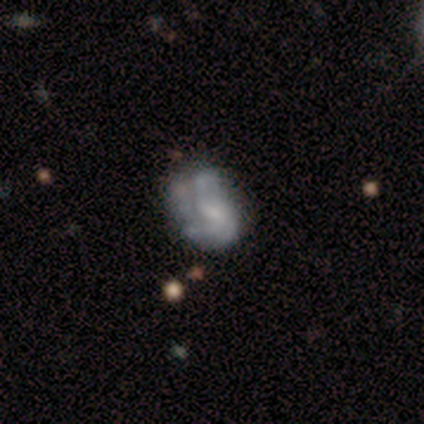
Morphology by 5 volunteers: Smooth or featured? 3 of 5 (60%) said smooth. How rounded? 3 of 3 (100%) said in between. Merging? 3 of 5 (60%) said none.